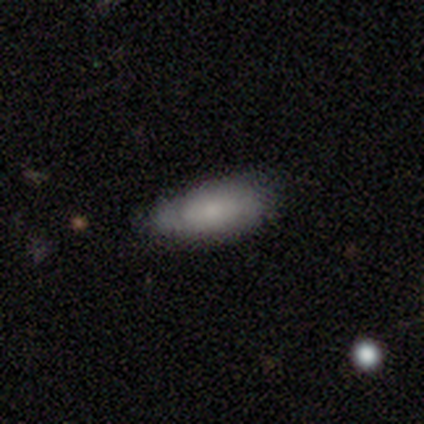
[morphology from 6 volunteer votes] smooth_or_featured: smooth (p=1.00)
how_rounded: in between (p=1.00)
merging: none (p=0.83) [alt: minor disturbance p=0.17]